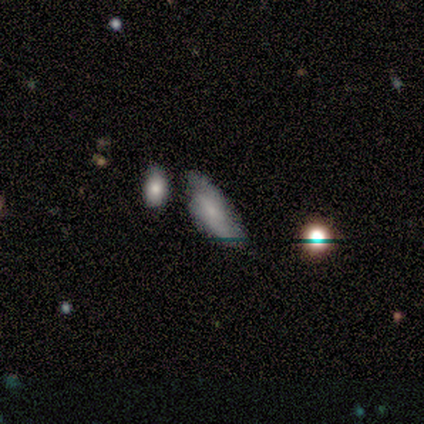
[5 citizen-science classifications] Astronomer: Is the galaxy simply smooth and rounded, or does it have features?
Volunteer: smooth — 60% (runner-up: featured or disk, 40%).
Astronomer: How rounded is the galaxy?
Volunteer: cigar-shaped — 67%.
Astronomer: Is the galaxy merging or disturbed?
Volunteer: none — 60% (runner-up: minor disturbance, 40%).